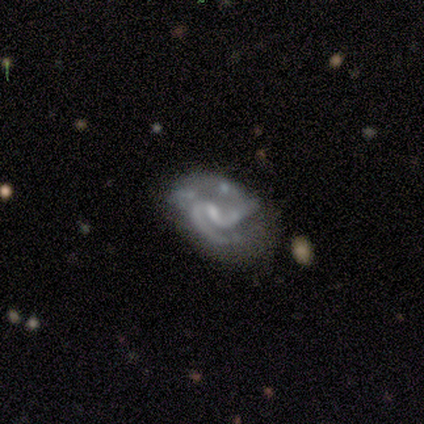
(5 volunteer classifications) smooth_or_featured: featured or disk (p=1.00)
disk_edge_on: no (p=0.80) [alt: yes p=0.20]
bar: weak (p=0.75) [alt: no p=0.25]
has_spiral_arms: yes (p=0.75) [alt: no p=0.25]
spiral_winding: medium (p=1.00)
spiral_arm_count: 2 (p=0.67) [alt: can't tell p=0.33]
bulge_size: small (p=0.50) [alt: moderate p=0.25]
merging: none (p=0.60) [alt: major disturbance p=0.40]